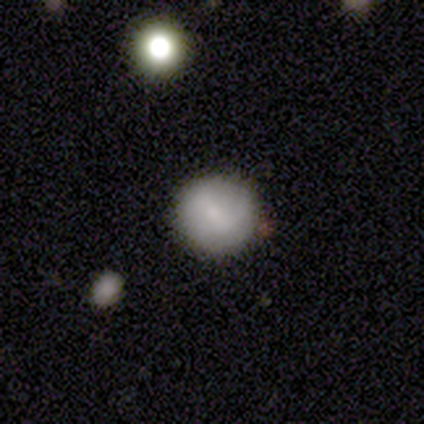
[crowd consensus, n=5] A smooth galaxy with no disk features (80%) that is round (100%). Merging: none (100%).